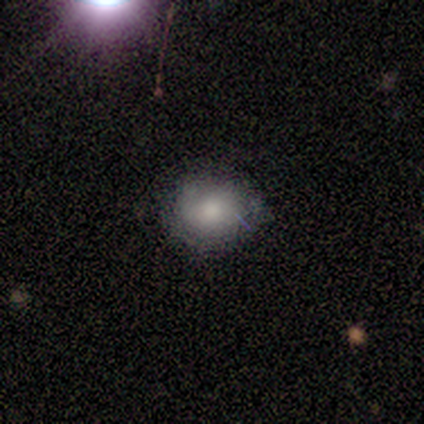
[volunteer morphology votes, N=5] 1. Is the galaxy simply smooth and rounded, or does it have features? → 80% smooth, 20% featured or disk, 0% star or artifact.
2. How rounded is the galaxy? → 75% round, 25% in between, 0% cigar-shaped.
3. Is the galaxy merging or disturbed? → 100% none, 0% minor disturbance, 0% major disturbance, 0% merger.